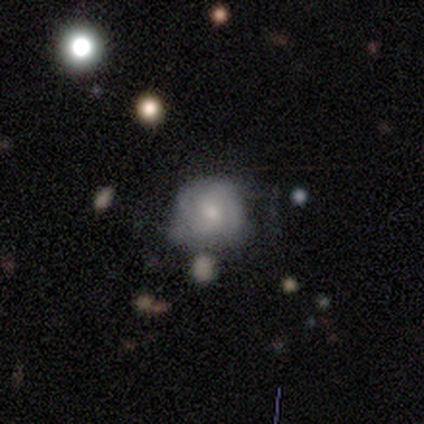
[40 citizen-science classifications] Smooth or featured? 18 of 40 (45%, tied with featured or disk) said smooth. How rounded? 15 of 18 (83%) said round. Merging? 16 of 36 (44%) said minor disturbance.